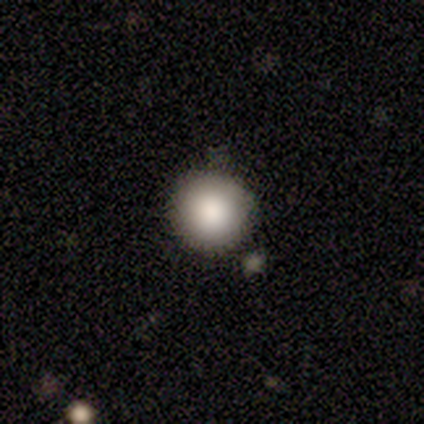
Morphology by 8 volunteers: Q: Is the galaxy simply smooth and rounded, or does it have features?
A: smooth — 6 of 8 (75%).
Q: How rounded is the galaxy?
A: round — 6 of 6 (100%).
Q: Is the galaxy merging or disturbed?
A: none — 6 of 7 (86%).